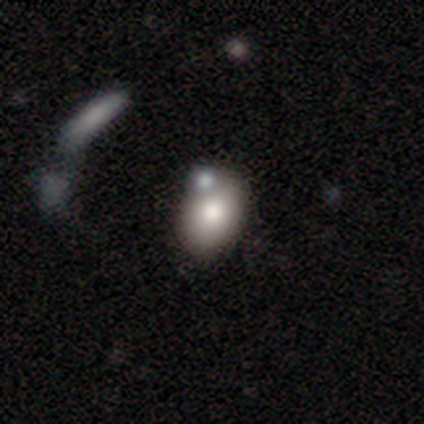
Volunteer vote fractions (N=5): Morphology: type=smooth (100%); roundness=in between (60%); merging=none (60%).